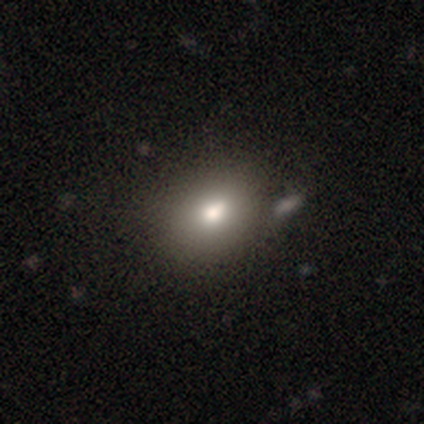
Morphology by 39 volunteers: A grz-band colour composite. It shows a smooth galaxy with no disk features (72%) that is in between round and cigar-shaped (61%). Merging: none (38%).